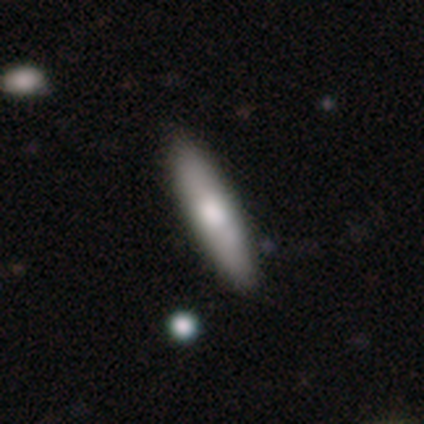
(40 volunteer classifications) Q: Smooth or featured?
A: smooth (68%); runner-up: featured or disk (30%)
Q: How rounded?
A: cigar-shaped (74%); runner-up: in between (26%)
Q: Merging?
A: none (56%); runner-up: minor disturbance (5%)